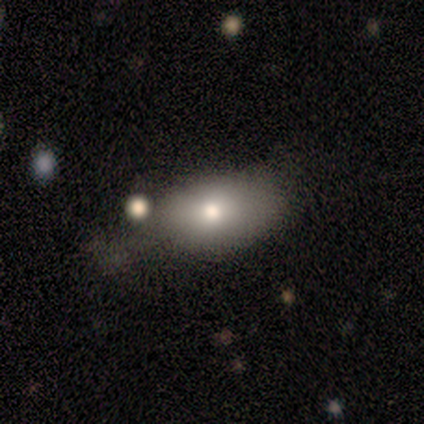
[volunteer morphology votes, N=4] Smooth or featured?
  - smooth: 100% *
  - featured or disk: 0%
  - star or artifact: 0%
How rounded?
  - in between: 100% *
  - round: 0%
  - cigar-shaped: 0%
Merging?
  - minor disturbance: 50% * (tied)
  - major disturbance: 50% * (tied)
  - none: 0%
  - merger: 0%